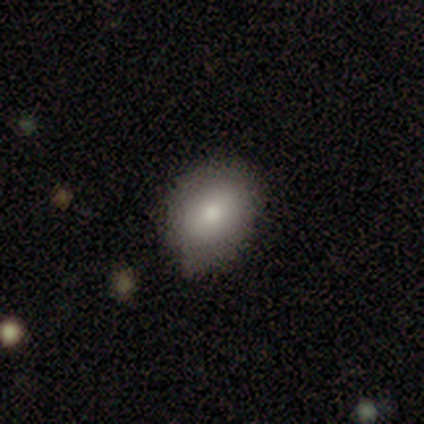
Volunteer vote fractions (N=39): A smooth galaxy with no disk features (87%) that is in between round and cigar-shaped (68%).

Vote fractions:
- Smooth or featured? smooth: 87% / featured or disk: 8% / star or artifact: 5%
- How rounded? in between: 68% / round: 32% / cigar-shaped: 0%
- Merging? none: 62% / minor disturbance: 30% / major disturbance: 8% / merger: 0%